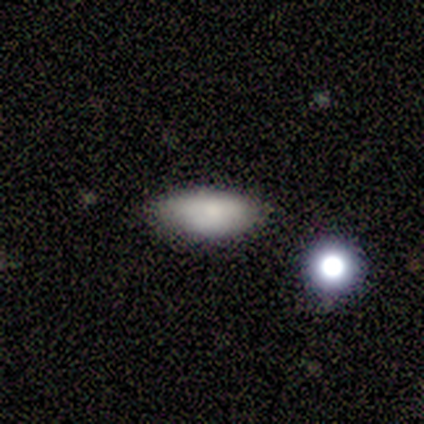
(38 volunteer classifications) Smooth or featured: smooth — 89% (featured or disk — 8%)
How rounded: in between — 76% (cigar-shaped — 21%)
Merging: none — 70% (minor disturbance — 22%)